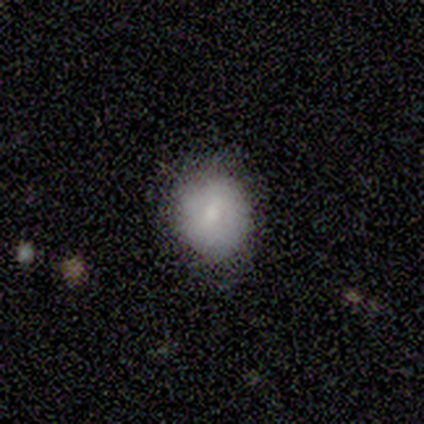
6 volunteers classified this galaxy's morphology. This appears to be a smooth galaxy with no disk features (83%) that is round (80%). Merging: none (80%).